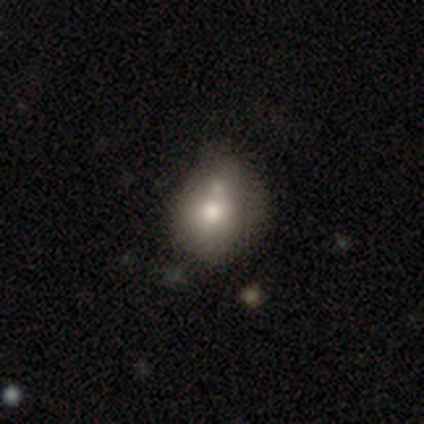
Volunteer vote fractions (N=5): Morphology: type=smooth (100%); roundness=round (60%); merging=none (40%, tied with minor disturbance).